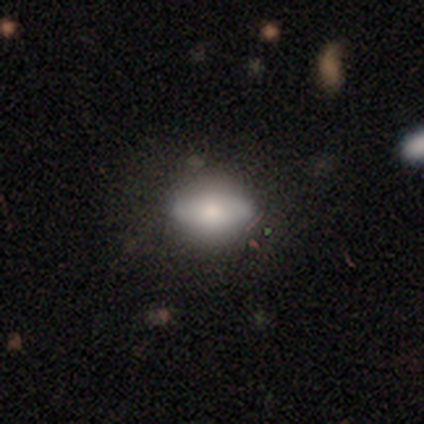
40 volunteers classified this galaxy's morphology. Q: Smooth or featured?
A: smooth (50%); runner-up: featured or disk (30%)
Q: How rounded?
A: in between (65%); runner-up: round (25%)
Q: Merging?
A: none (66%); runner-up: minor disturbance (31%)